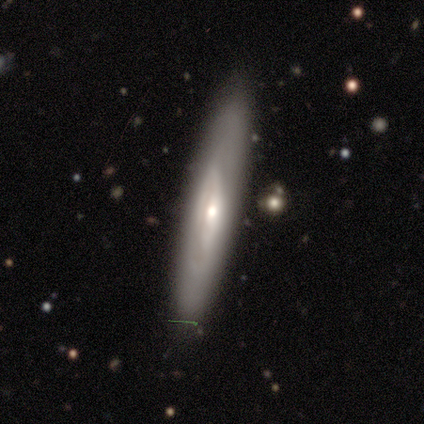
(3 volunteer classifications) Smooth or featured: featured or disk — 100%
Edge-on disk: no — 100%
Bar: weak — 67% (no — 33%)
Spiral arms: yes — 67% (no — 33%)
Spiral winding: medium — 100%
Spiral arm count: 2 — 50% (tied with can't tell — 50%)
Bulge size: small — 67% (moderate — 33%)
Merging: none — 100%